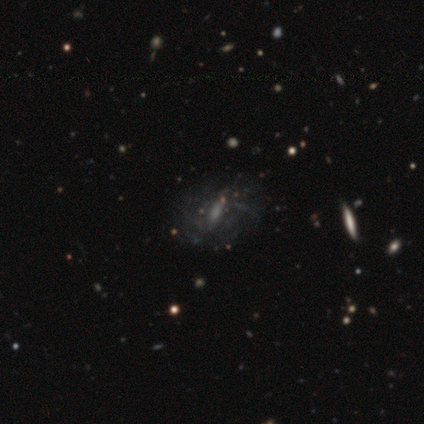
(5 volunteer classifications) Smooth or featured: featured or disk — 60% (smooth — 20%)
Edge-on disk: no — 100%
Bar: weak — 67% (strong — 33%)
Spiral arms: yes — 100%
Spiral winding: tight — 100%
Spiral arm count: can't tell — 67% (more than 4 — 33%)
Bulge size: moderate — 67% (none — 33%)
Merging: none — 100%